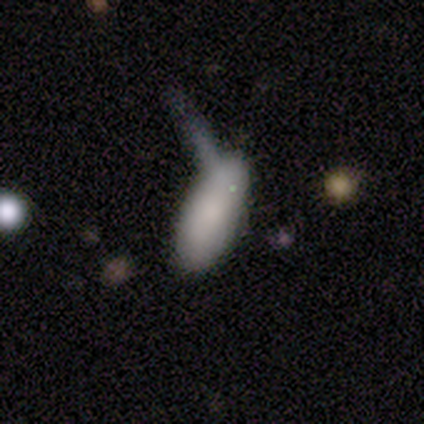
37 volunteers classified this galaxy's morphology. Volunteers were most divided on "merging": merger: 29%, none: 23%, major disturbance: 20%, minor disturbance: 6%. More confident: how rounded — in between (89%); smooth or featured — smooth (76%).